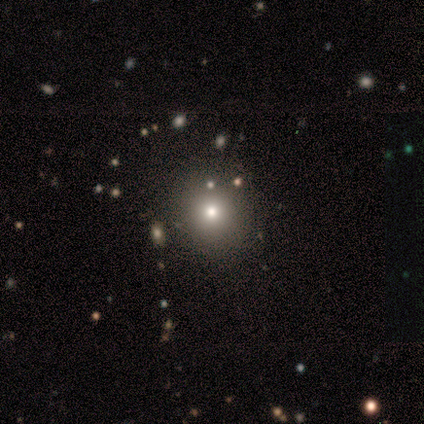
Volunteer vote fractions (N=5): Morphology: type=smooth (100%); roundness=round (100%); merging=none (100%).